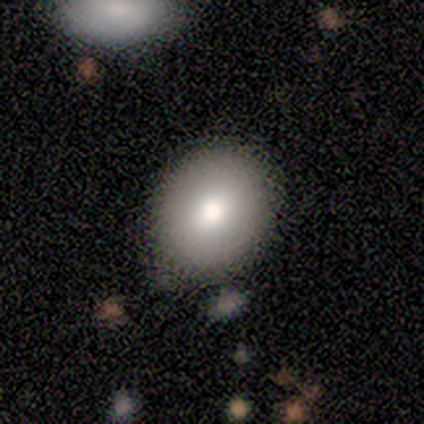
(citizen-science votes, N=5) Smooth or featured? 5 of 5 (100%) said smooth. How rounded? 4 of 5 (80%) said round. Merging? 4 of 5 (80%) said none.